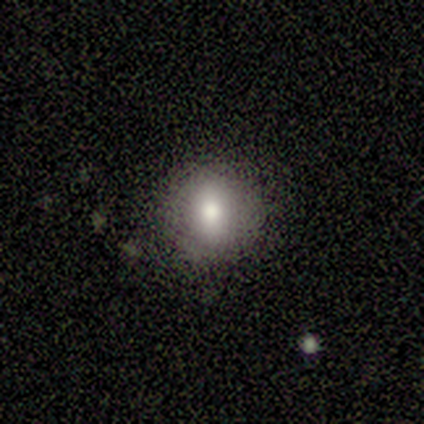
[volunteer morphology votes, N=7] Smooth or featured? 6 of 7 (86%) said smooth. How rounded? 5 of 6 (83%) said round. Merging? 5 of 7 (71%) said none.